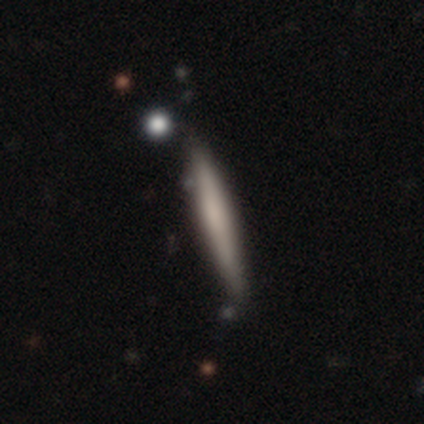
smooth-or-featured: smooth: 51% | featured or disk: 41% | star or artifact: 8%
  how-rounded: cigar-shaped: 100% | round: 0% | in between: 0%
  merging: none: 78% | minor disturbance: 19% | major disturbance: 3% | merger: 0%